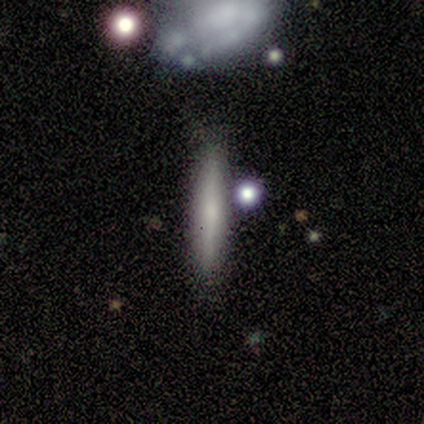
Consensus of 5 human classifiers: Smooth or featured?
  - smooth: 80% *
  - featured or disk: 20%
  - star or artifact: 0%
How rounded?
  - cigar-shaped: 100% *
  - round: 0%
  - in between: 0%
Merging?
  - none: 80% *
  - merger: 20%
  - minor disturbance: 0%
  - major disturbance: 0%